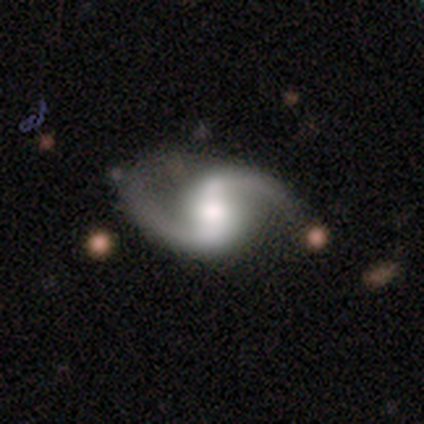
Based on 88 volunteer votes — Smooth or featured? featured or disk (93%)
Edge-on disk? no (100%)
Bar? strong (39%, tied with weak)
Spiral arms? yes (99%)
Spiral winding? loose (67%)
Spiral arm count? 2 (100%)
Bulge size? moderate (55%)
Merging? none (71%)